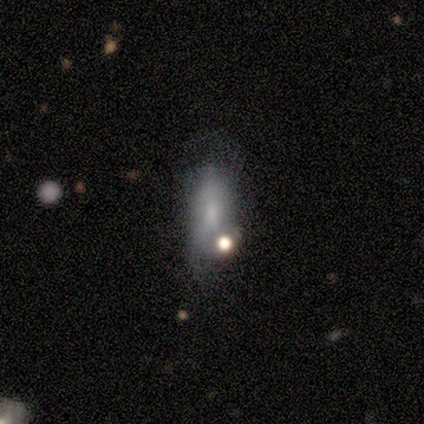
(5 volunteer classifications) This is likely a smooth galaxy (60%). How rounded: likely in between (67%). Merging: marginally none (40%).